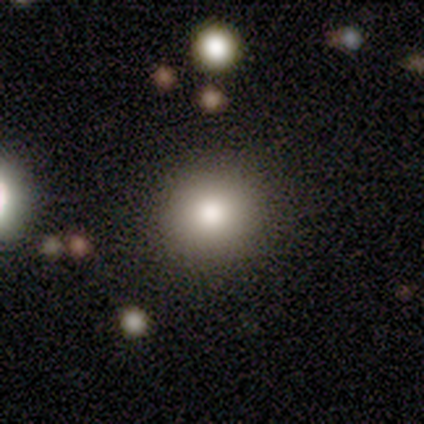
smooth-or-featured: smooth: 80% | star or artifact: 20% | featured or disk: 0%
  how-rounded: round: 100% | in between: 0% | cigar-shaped: 0%
  merging: none: 100% | minor disturbance: 0% | major disturbance: 0% | merger: 0%